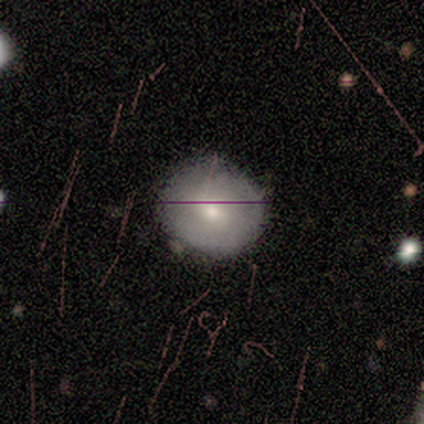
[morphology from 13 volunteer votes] This appears to be a smooth galaxy with no disk features (62%) that is round (100%). Merging: none (91%).